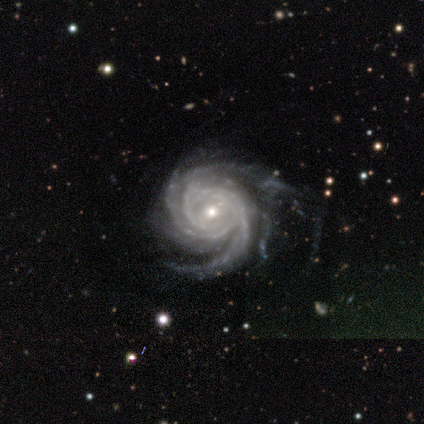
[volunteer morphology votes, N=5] Volunteers were most divided on "spiral arm count" (2-way tie): 2: 40%, 3: 40%, more than 4: 20%, 1: 0%, 4: 0%, can't tell: 0%. More confident: smooth or featured — featured or disk (100%); edge-on disk — no (100%); spiral arms — yes (100%); spiral winding — tight (100%); bulge size — small (80%); bar — no (60%); merging — none (60%).